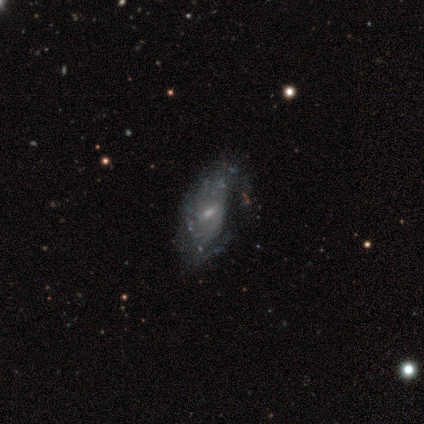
This appears to be a featured or disk galaxy (60%) with a weak bar (100%), no spiral arms (67%) and a small central bulge (100%). Merging: none (75%).